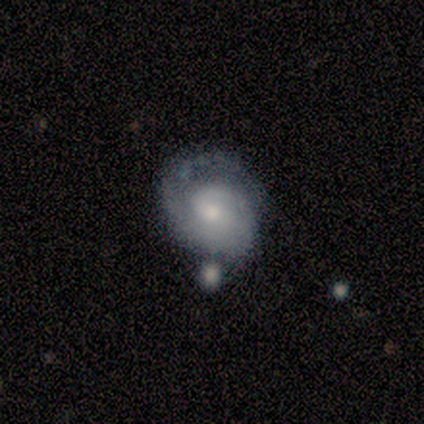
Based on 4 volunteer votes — A featured or disk galaxy (100%) with no bar (100%), 1 (33%, tied with 2 and can't tell) medium (100%) spiral arms (75%) and a small central bulge (75%). Merging: none (50%, tied with minor disturbance).